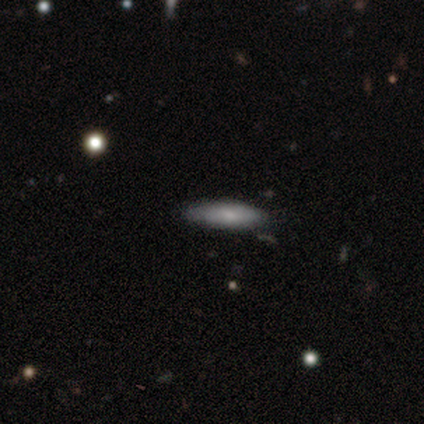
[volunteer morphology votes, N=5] Smooth or featured? smooth (60%)
How rounded? cigar-shaped (100%)
Merging? none (100%)